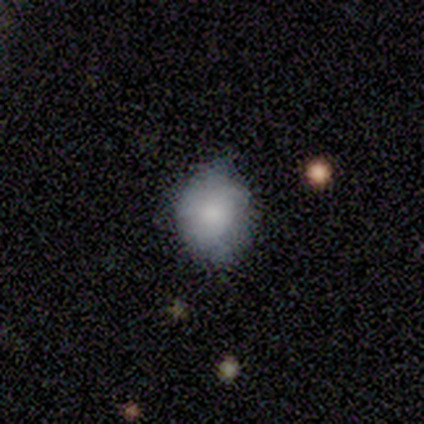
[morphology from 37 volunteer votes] A smooth galaxy with no disk features (81%) that is round (53%). Merging: none (59%).